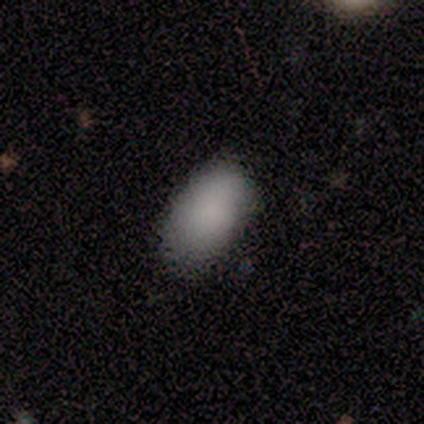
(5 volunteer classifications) smooth-or-featured: smooth: 100% | featured or disk: 0% | star or artifact: 0%
  how-rounded: in between: 100% | round: 0% | cigar-shaped: 0%
  merging: none: 100% | minor disturbance: 0% | major disturbance: 0% | merger: 0%